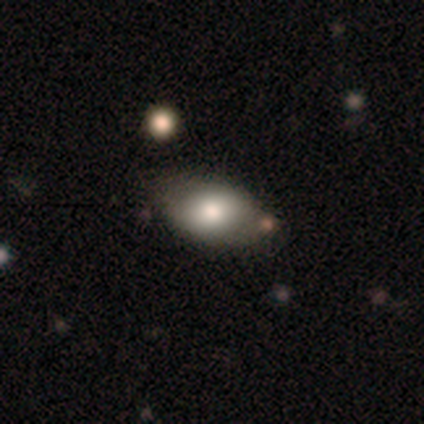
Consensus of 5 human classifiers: This is likely a smooth galaxy (60%). How rounded: clearly in between (100%). Merging: possibly none (50%).